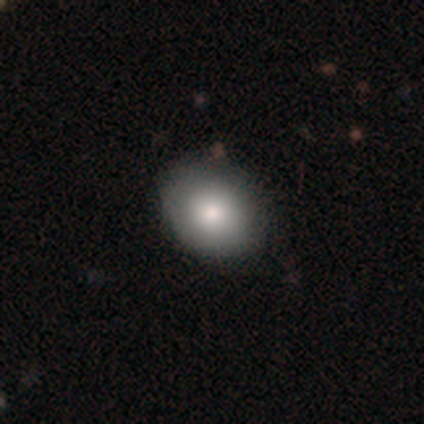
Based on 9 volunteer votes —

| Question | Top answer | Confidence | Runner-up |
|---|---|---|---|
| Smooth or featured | smooth | 89% | star or artifact (11%) |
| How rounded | in between | 100% | — |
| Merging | none | 88% | minor disturbance (12%) |